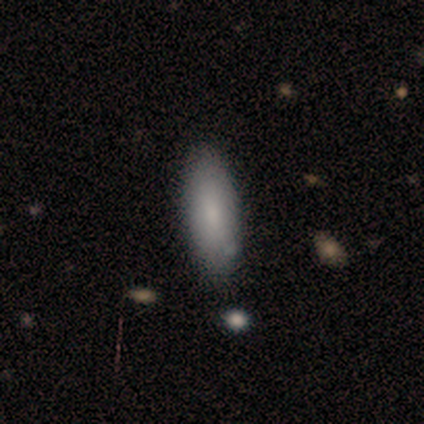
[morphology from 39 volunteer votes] Smooth or featured?
  - smooth: 85% *
  - featured or disk: 15%
  - star or artifact: 0%
How rounded?
  - in between: 64% *
  - cigar-shaped: 33%
  - round: 3%
Merging?
  - none: 74% *
  - merger: 8%
  - minor disturbance: 5%
  - major disturbance: 0%